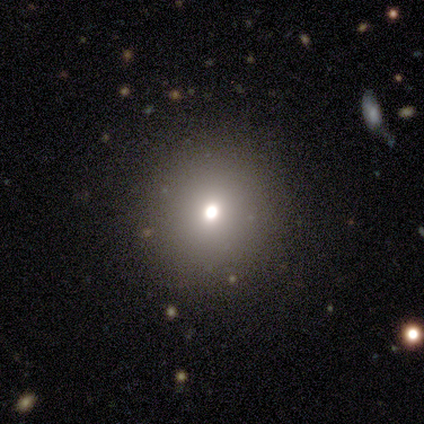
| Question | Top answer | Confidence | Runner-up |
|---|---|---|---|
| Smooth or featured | smooth | 50% | tied: star or artifact (50%) |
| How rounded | round | 100% | — |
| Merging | none | 100% | — |